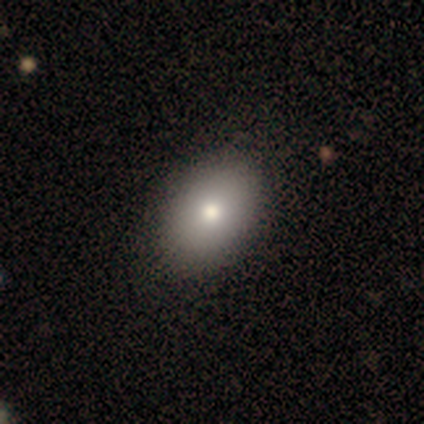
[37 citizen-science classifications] A smooth galaxy with no disk features (76%) that is in between round and cigar-shaped (96%).

Vote fractions:
- Smooth or featured? smooth: 76% / featured or disk: 16% / star or artifact: 8%
- How rounded? in between: 96% / round: 4% / cigar-shaped: 0%
- Merging? none: 50% / merger: 6% / minor disturbance: 3% / major disturbance: 0%